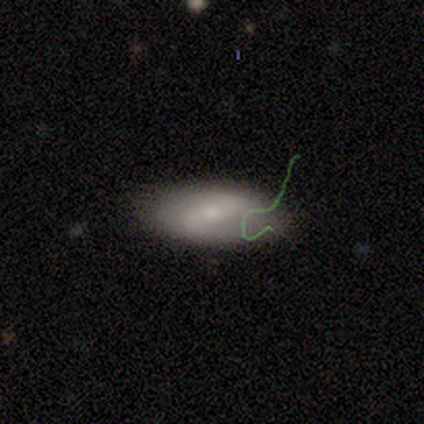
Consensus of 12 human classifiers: smooth_or_featured: featured or disk (p=0.58) [alt: smooth p=0.33]
disk_edge_on: no (p=1.00)
bar: strong (p=0.43) [alt: weak p=0.29]
has_spiral_arms: yes (p=0.86) [alt: no p=0.14]
spiral_winding: medium (p=0.50) [alt: loose p=0.33]
spiral_arm_count: 2 (p=0.83) [alt: more than 4 p=0.17]
bulge_size: small (p=1.00)
merging: none (p=0.55) [alt: minor disturbance p=0.27]